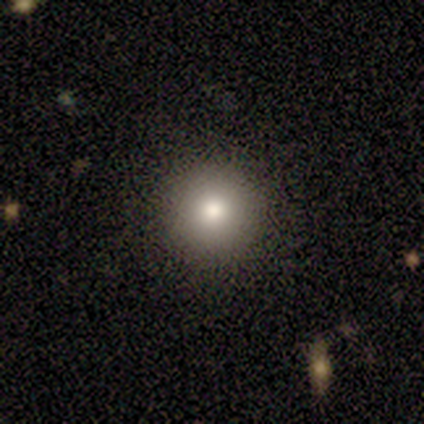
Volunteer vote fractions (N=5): Smooth or featured? 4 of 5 (80%) said smooth. How rounded? 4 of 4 (100%) said round. Merging? 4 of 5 (80%) said none.